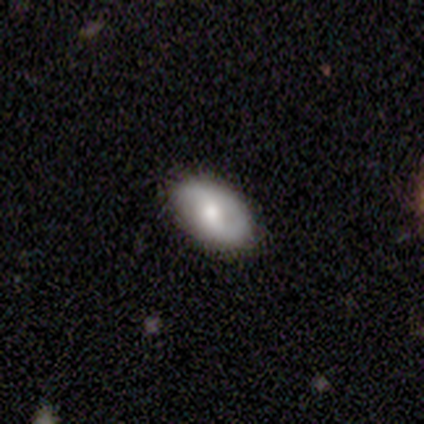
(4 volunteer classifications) Morphology: type=featured or disk (75%); edge-on=no (67%); bar=weak (50%, tied with no); spiral arms=no (100%); bulge=moderate (50%, tied with small); merging=none (75%).